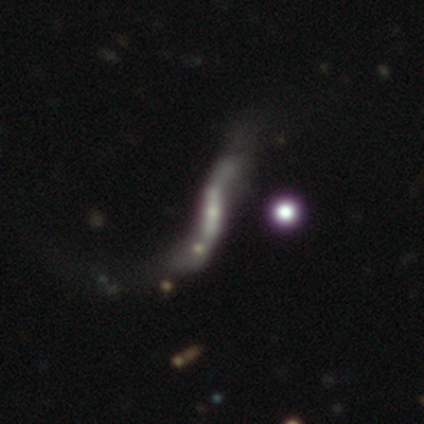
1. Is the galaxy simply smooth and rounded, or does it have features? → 74% featured or disk, 13% smooth, 13% star or artifact.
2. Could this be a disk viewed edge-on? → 86% no, 14% yes.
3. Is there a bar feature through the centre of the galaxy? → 54% strong, 25% weak, 21% no.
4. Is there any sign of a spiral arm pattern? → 71% yes, 29% no.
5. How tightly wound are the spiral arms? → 100% loose, 0% tight, 0% medium.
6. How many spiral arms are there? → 94% 2, 6% can't tell, 0% 1, 0% 3, 0% 4, 0% more than 4.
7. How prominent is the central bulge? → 62% small, 25% none, 4% dominant, 4% large, 4% moderate.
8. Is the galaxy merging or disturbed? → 52% major disturbance, 30% none, 12% merger, 6% minor disturbance.